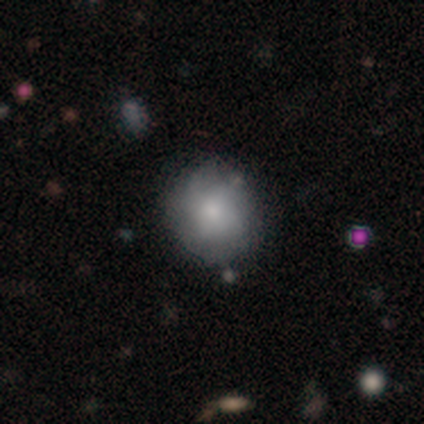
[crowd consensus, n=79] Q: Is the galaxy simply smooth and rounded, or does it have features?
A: smooth — 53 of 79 (67%).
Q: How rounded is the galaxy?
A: round — 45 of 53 (85%).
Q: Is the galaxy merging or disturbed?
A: none — 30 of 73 (41%).